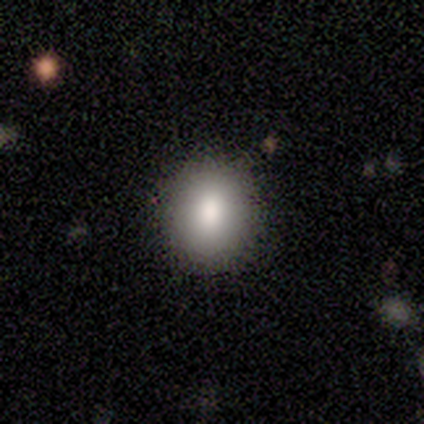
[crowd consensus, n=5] smooth-or-featured: smooth: 100% | featured or disk: 0% | star or artifact: 0%
  how-rounded: in between: 60% | round: 40% | cigar-shaped: 0%
  merging: none: 100% | minor disturbance: 0% | major disturbance: 0% | merger: 0%